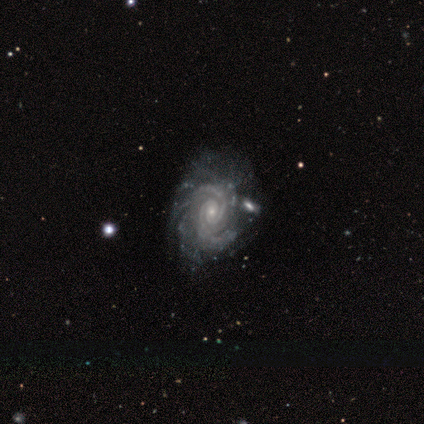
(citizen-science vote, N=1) Consensus on every question: smooth or featured — featured or disk (100%); edge-on disk — no (100%); bar — weak (100%); spiral arms — yes (100%); spiral winding — tight (100%); spiral arm count — 2 (100%); bulge size — small (100%); merging — none (100%).